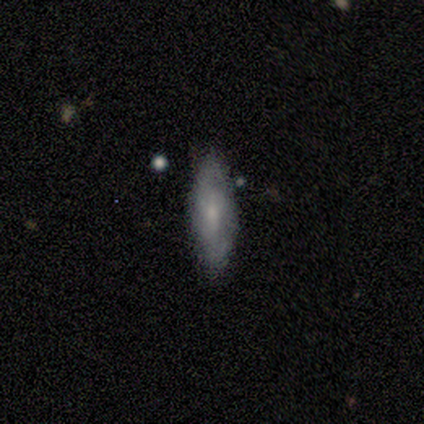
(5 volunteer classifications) Smooth or featured? featured or disk (80%)
Edge-on disk? yes (50%, tied with no)
Edge-on bulge? boxy (50%, tied with none)
Merging? none (80%)